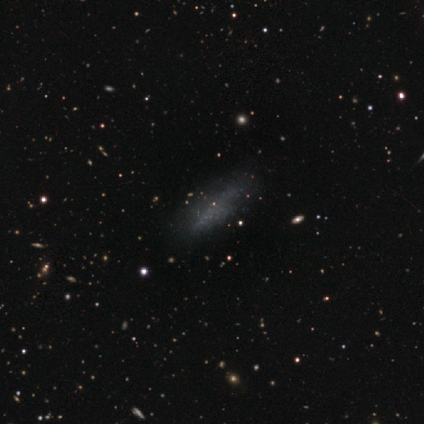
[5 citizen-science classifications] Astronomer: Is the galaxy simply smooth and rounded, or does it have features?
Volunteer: smooth — 60%.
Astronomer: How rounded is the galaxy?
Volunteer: in between — 67%.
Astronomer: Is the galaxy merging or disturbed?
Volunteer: none — 100%.